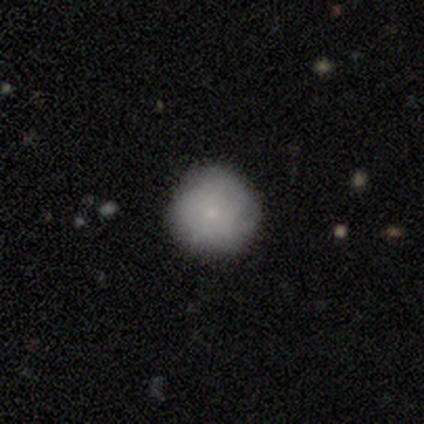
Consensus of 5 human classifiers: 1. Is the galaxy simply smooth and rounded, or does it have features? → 100% smooth, 0% featured or disk, 0% star or artifact.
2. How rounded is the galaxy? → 100% round, 0% in between, 0% cigar-shaped.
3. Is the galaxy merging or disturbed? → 80% none, 20% minor disturbance, 0% major disturbance, 0% merger.